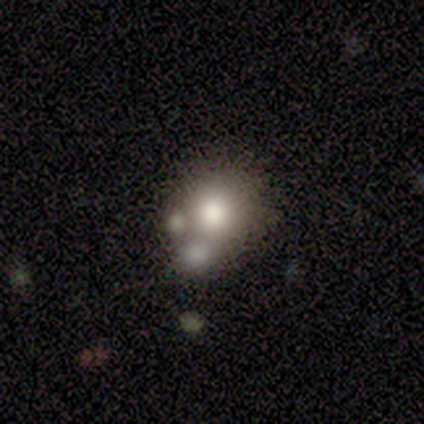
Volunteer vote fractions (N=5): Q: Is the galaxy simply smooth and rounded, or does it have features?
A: smooth — 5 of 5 (100%).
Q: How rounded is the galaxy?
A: round — 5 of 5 (100%).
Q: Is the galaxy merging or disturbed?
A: none — 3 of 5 (60%).